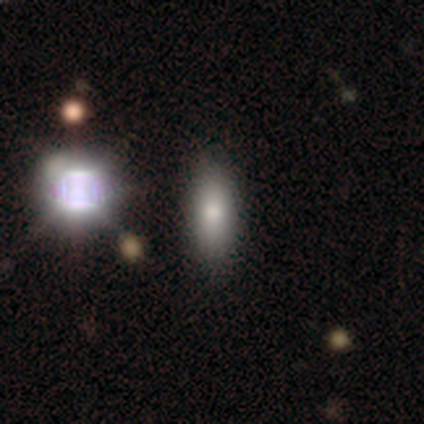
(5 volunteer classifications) A smooth galaxy with no disk features (80%) that is in between round and cigar-shaped (75%). Merging: none (100%).